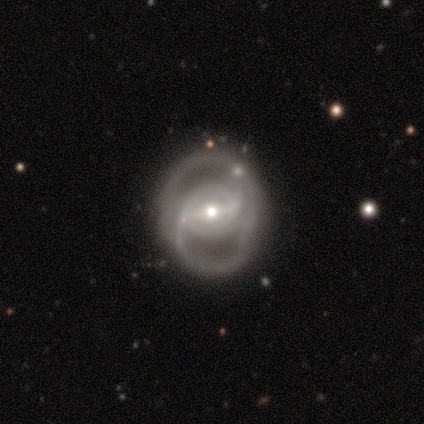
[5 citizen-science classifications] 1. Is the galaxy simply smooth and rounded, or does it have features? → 100% featured or disk, 0% smooth, 0% star or artifact.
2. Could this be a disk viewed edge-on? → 100% no, 0% yes.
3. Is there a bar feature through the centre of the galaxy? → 60% weak, 40% strong, 0% no.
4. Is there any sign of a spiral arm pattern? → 80% yes, 20% no.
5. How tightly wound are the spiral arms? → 50% medium, 25% tight, 25% loose.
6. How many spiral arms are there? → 75% 2, 25% can't tell, 0% 1, 0% 3, 0% 4, 0% more than 4.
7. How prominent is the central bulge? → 60% moderate, 40% small, 0% dominant, 0% large, 0% none.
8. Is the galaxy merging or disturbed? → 80% minor disturbance, 20% none, 0% major disturbance, 0% merger.